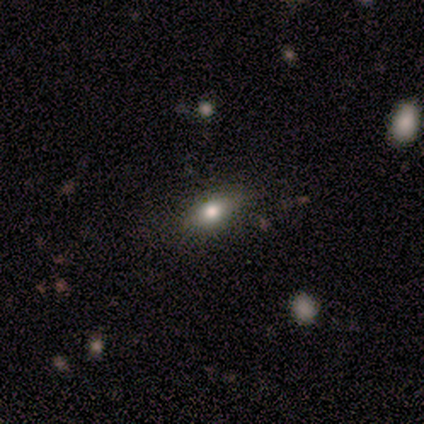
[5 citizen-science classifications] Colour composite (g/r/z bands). It shows a smooth galaxy with no disk features (100%) that is in between round and cigar-shaped (80%). Merging: none (100%).